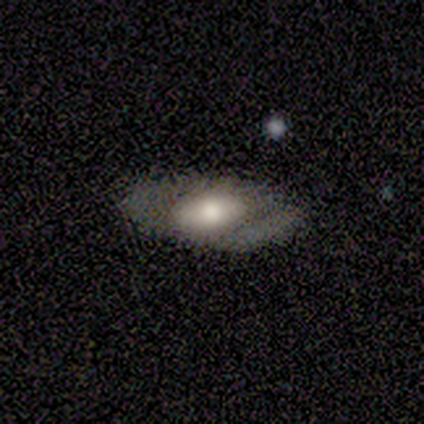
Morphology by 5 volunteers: A featured or disk galaxy (60%) with no bar (100%), no spiral arms (100%) and a moderate central bulge (100%). Merging: none (60%).